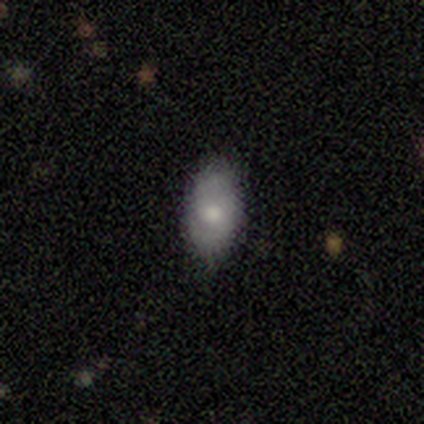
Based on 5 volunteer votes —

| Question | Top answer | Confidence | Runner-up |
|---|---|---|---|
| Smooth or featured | smooth | 80% | featured or disk (20%) |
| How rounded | in between | 100% | — |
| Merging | none | 60% | minor disturbance (20%) |